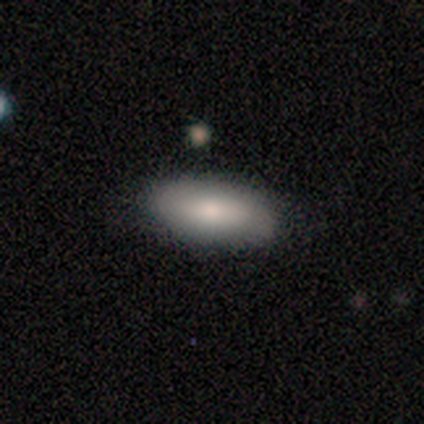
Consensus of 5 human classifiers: This is clearly a smooth galaxy (80%). How rounded: clearly in between (100%). Merging: likely none (60%).